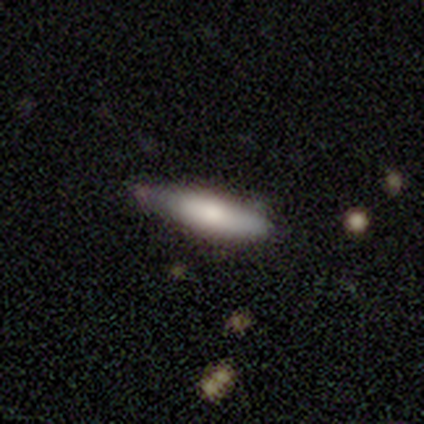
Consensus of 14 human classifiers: Morphology: type=featured or disk (64%); edge-on=yes (89%); edge-on bulge=rounded (100%); merging=none (50%).